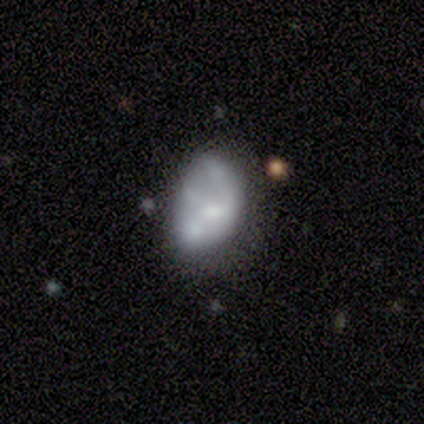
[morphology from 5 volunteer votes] Overall: featured or disk (80%). Edge-on disk: no (100%). Bar: no (100%). Spiral arms: no (100%). Bulge size: moderate (50%; small 25%). Merging: major disturbance (60%; none 20%).